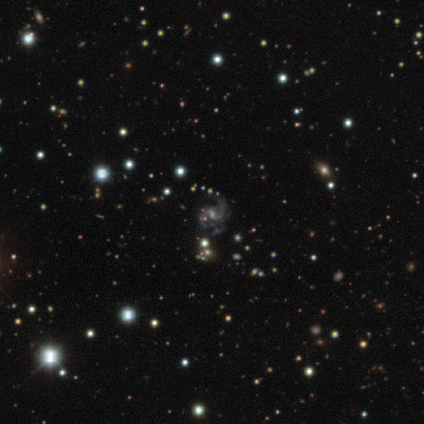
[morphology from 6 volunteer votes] This is clearly a featured or disk galaxy (83%). It is clearly not viewed edge-on (100%). Bar: likely no (60%). Spiral arm pattern: clearly yes (100%). Spiral arm count: clearly 2 (100%). Spiral winding: likely medium (60%). Central bulge: likely small (60%). Merging: likely minor disturbance (60%).